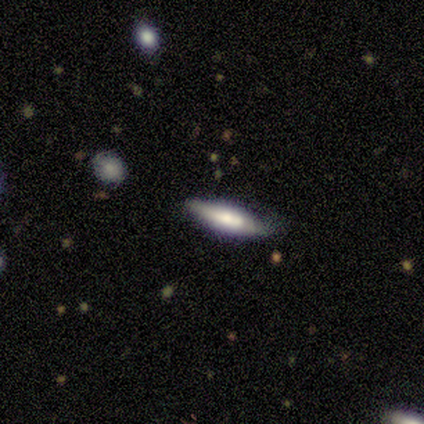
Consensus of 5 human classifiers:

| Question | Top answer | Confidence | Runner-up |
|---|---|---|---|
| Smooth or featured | smooth | 40% | tied: featured or disk (40%) |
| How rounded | cigar-shaped | 100% | — |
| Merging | none | 75% | minor disturbance (25%) |